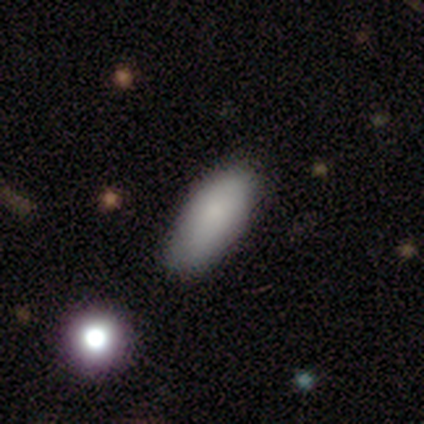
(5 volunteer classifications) A smooth galaxy with no disk features (80%) that is in between round and cigar-shaped (75%).

Vote fractions:
- Smooth or featured? smooth: 80% / featured or disk: 20% / star or artifact: 0%
- How rounded? in between: 75% / cigar-shaped: 25% / round: 0%
- Merging? none: 100% / minor disturbance: 0% / major disturbance: 0% / merger: 0%